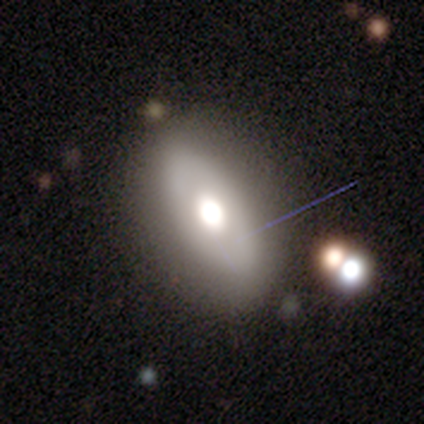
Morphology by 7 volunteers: smooth 57%, featured or disk 29%, star or artifact 14%. Down the decision tree: how rounded — in between (100%); merging — none (67%).